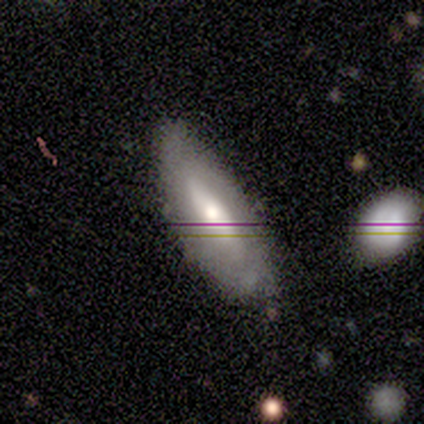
This is possibly a smooth galaxy (50%, tied with featured or disk). How rounded: clearly in between (100%). Merging: likely none (62%).